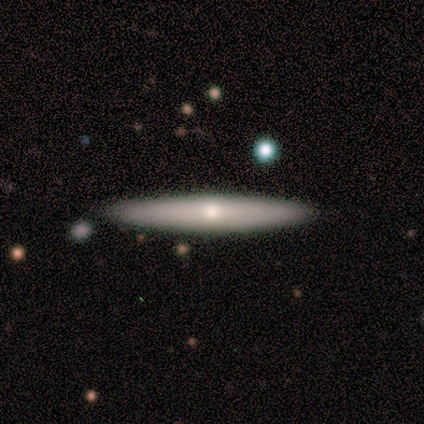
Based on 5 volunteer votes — Smooth or featured?
  - smooth: 60% *
  - featured or disk: 40%
  - star or artifact: 0%
How rounded?
  - cigar-shaped: 100% *
  - round: 0%
  - in between: 0%
Merging?
  - none: 80% *
  - minor disturbance: 20%
  - major disturbance: 0%
  - merger: 0%